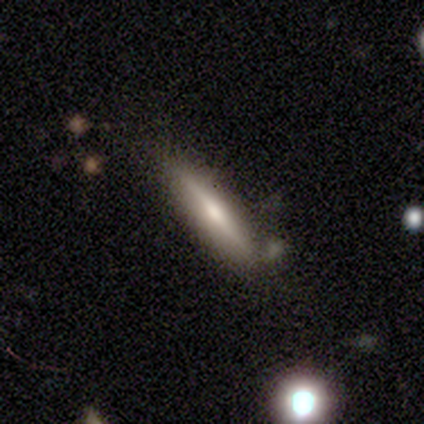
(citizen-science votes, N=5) A featured or disk galaxy (100%) viewed edge-on (100%) with a rounded central bulge (60%). Merging: none (40%).